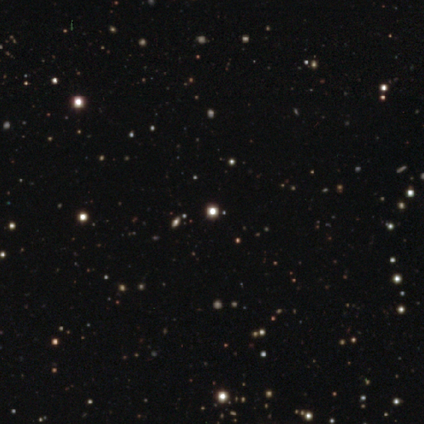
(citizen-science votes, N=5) smooth-or-featured: star or artifact: 80% | smooth: 20% | featured or disk: 0%